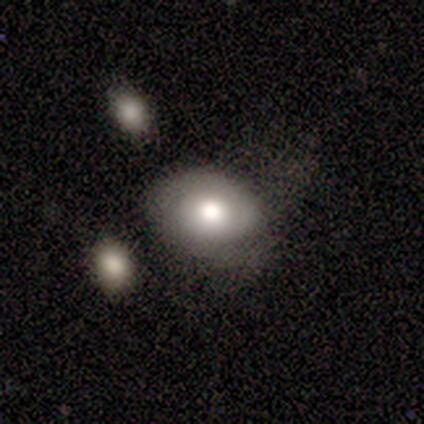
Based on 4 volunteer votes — Smooth or featured? 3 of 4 (75%) said smooth. How rounded? 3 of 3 (100%) said in between. Merging? 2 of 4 (50%) said none.